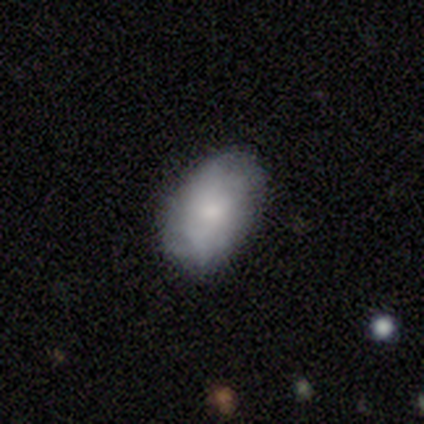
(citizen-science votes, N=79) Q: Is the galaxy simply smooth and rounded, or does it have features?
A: smooth — 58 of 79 (73%).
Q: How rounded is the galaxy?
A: in between — 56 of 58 (97%).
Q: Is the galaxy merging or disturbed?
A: none — 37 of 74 (50%).